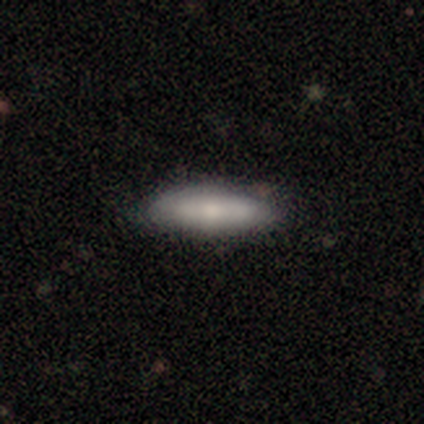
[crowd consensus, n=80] Smooth or featured?
  - smooth: 72% *
  - featured or disk: 20%
  - star or artifact: 8%
How rounded?
  - cigar-shaped: 55% *
  - in between: 43%
  - round: 2%
Merging?
  - none: 53% *
  - minor disturbance: 7%
  - merger: 4%
  - major disturbance: 0%